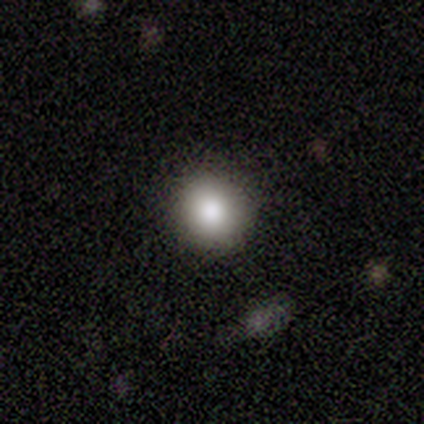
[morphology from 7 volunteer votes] A smooth galaxy with no disk features (71%) that is round (100%). Merging: none (100%).